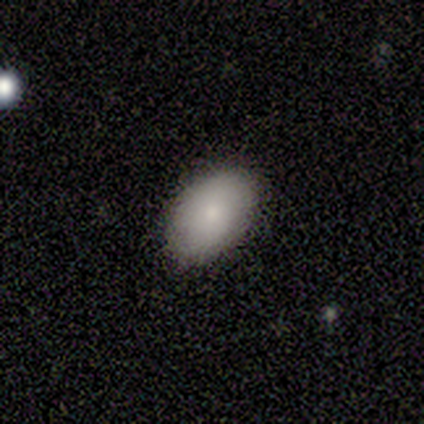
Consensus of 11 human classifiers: smooth-or-featured: smooth: 82% | featured or disk: 9% | star or artifact: 9%
  how-rounded: in between: 89% | round: 11% | cigar-shaped: 0%
  merging: none: 100% | minor disturbance: 0% | major disturbance: 0% | merger: 0%